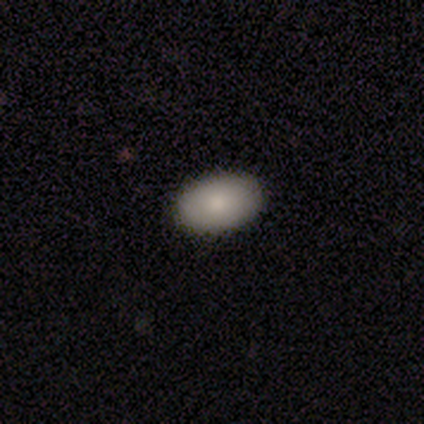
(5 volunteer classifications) Volunteers were most divided on "how rounded": in between: 75%, cigar-shaped: 25%, round: 0%. More confident: merging — none (100%); smooth or featured — smooth (80%).